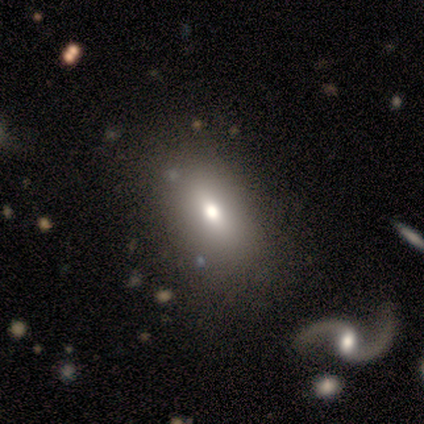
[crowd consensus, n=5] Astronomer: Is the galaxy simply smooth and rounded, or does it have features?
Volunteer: smooth — 80%.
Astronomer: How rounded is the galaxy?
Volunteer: in between — 100%.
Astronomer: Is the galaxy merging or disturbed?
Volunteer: none — 75%.